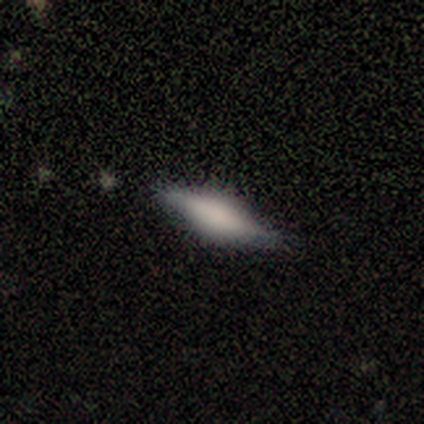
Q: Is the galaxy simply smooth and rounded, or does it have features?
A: smooth — 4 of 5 (80%).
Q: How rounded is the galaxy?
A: in between — 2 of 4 (50%, tied with cigar-shaped).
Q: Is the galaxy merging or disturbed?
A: none — 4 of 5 (80%).